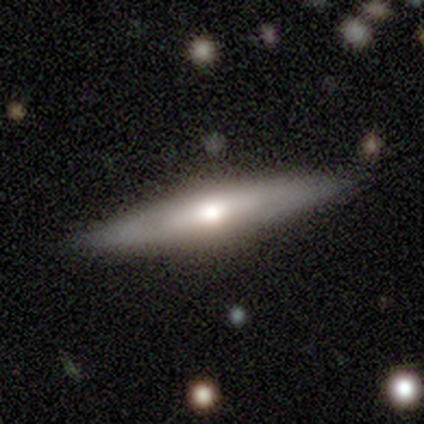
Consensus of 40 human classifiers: Smooth or featured? featured or disk (70%)
Edge-on disk? yes (93%)
Edge-on bulge? rounded (92%)
Merging? none (84%)